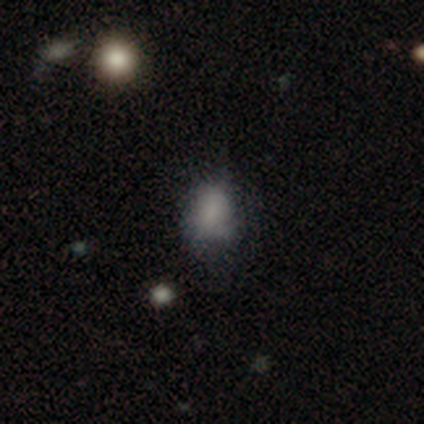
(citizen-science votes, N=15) Q: Smooth or featured?
A: smooth (80%); runner-up: star or artifact (13%)
Q: How rounded?
A: in between (58%); runner-up: round (42%)
Q: Merging?
A: none (77%); runner-up: minor disturbance (23%)